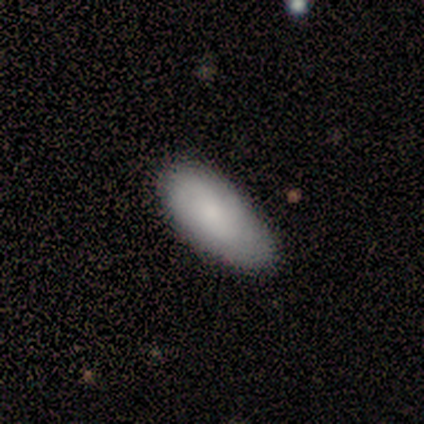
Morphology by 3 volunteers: Smooth or featured? smooth (67%)
How rounded? round (50%, tied with in between)
Merging? none (67%)